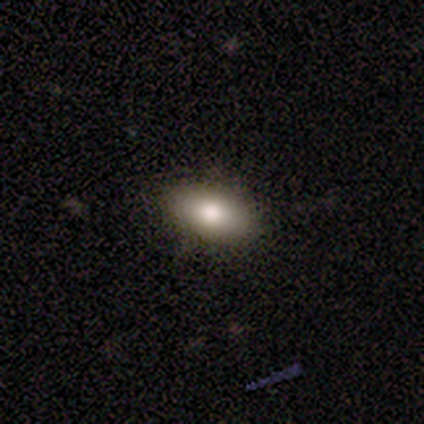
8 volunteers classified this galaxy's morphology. smooth_or_featured: smooth (p=0.62) [alt: featured or disk p=0.25]
how_rounded: in between (p=1.00)
merging: none (p=0.86) [alt: minor disturbance p=0.14]